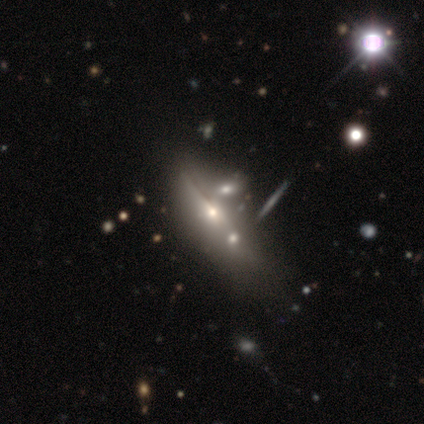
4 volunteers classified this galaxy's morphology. type=smooth (50%, tied with featured or disk); roundness=in between (100%); merging=merger (75%).